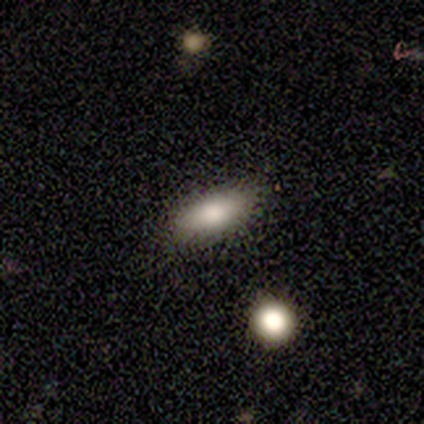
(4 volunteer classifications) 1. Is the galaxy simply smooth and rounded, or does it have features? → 75% smooth, 25% star or artifact, 0% featured or disk.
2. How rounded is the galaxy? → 67% cigar-shaped, 33% in between, 0% round.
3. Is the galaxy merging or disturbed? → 67% none, 33% minor disturbance, 0% major disturbance, 0% merger.